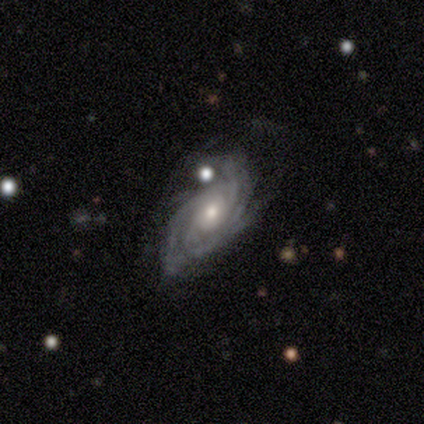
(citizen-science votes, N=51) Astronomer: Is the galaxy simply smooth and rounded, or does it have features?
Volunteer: featured or disk — 94%.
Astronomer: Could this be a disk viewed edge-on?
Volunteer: no — 98%.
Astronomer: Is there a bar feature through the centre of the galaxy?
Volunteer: no — 77%.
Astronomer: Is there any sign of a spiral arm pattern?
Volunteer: yes — 98%.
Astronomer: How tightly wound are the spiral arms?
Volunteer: tight — 59% (runner-up: medium, 37%).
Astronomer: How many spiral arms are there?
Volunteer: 3 — 46% (runner-up: 4, 26%).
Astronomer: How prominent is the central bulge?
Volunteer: moderate — 68%.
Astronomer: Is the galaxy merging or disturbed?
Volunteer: none — 44% (runner-up: minor disturbance, 22%).